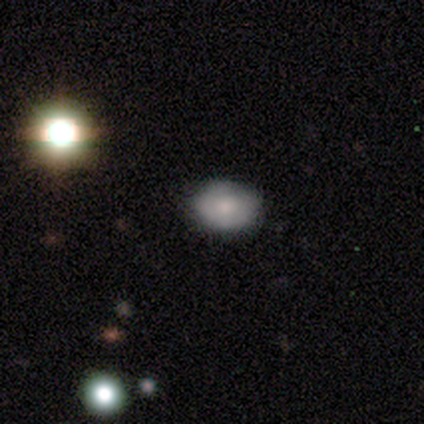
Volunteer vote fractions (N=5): Q: Smooth or featured?
A: smooth (100%)
Q: How rounded?
A: in between (100%)
Q: Merging?
A: none (100%)